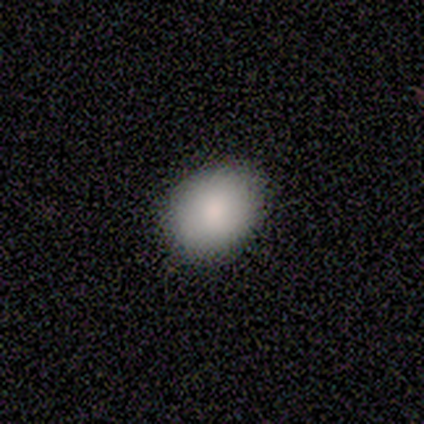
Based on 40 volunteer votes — smooth 85%, featured or disk 10%, star or artifact 5%. Down the decision tree: how rounded — in between (62%); merging — none (79%).